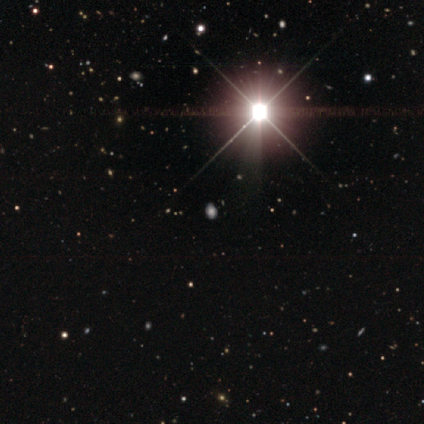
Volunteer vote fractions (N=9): smooth_or_featured: star or artifact (p=0.67) [alt: smooth p=0.22]